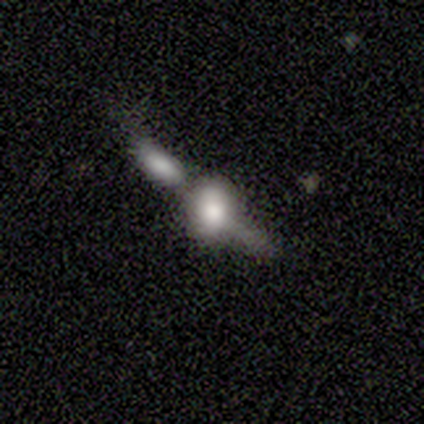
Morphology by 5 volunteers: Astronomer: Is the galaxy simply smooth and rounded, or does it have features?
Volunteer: smooth — 60% (runner-up: featured or disk, 40%).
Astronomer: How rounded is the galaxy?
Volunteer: in between — 100%.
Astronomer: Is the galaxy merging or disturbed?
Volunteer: merger — 80%.